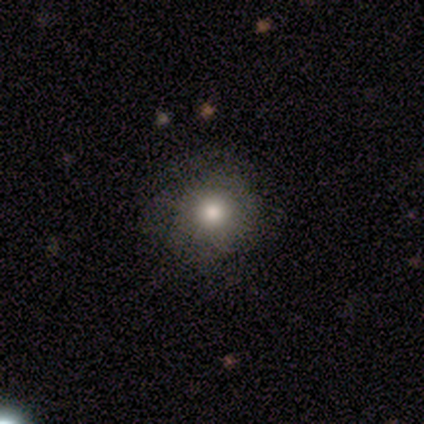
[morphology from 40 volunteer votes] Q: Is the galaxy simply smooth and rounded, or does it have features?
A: smooth — 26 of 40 (65%).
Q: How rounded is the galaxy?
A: round — 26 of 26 (100%).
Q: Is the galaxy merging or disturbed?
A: none — 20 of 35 (57%).